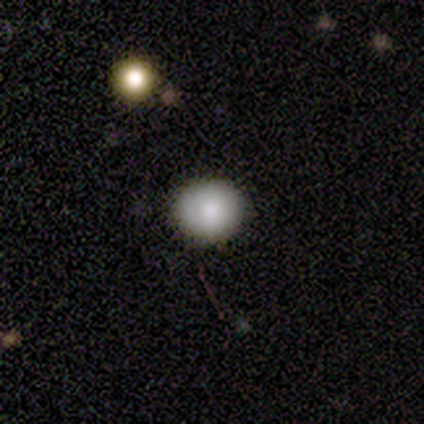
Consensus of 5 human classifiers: This appears to be a smooth galaxy with no disk features (80%) that is round (75%). Merging: none (100%).